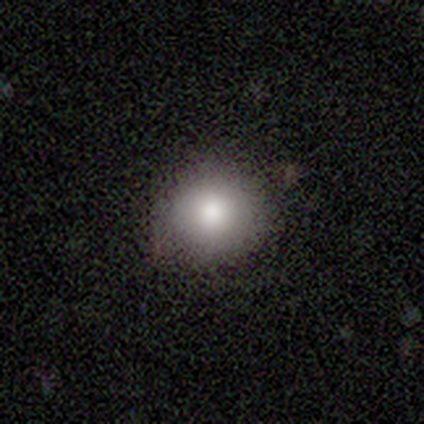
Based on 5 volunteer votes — smooth 80%, featured or disk 20%, star or artifact 0%. Down the decision tree: how rounded — round (100%); merging — none (100%).